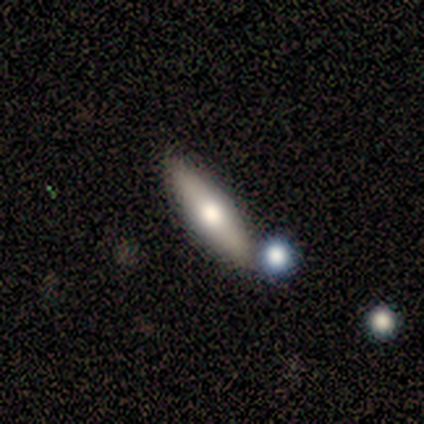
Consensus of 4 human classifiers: Volunteers were most divided on "smooth or featured" (2-way tie): smooth: 50%, featured or disk: 50%, star or artifact: 0%. More confident: how rounded — cigar-shaped (100%); merging — none (100%).